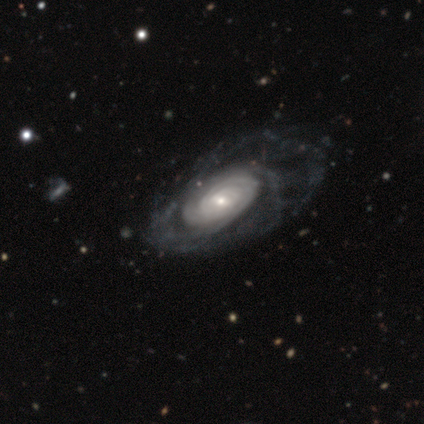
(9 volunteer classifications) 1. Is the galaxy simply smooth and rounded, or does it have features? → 89% featured or disk, 11% smooth, 0% star or artifact.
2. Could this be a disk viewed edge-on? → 88% no, 12% yes.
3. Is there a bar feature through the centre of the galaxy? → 57% weak, 29% no, 14% strong.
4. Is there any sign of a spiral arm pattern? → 86% yes, 14% no.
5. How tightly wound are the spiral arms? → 100% tight, 0% medium, 0% loose.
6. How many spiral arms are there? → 33% 4 (tied), 33% can't tell (tied), 17% 2, 17% more than 4, 0% 1, 0% 3.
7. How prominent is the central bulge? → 57% small, 43% moderate, 0% dominant, 0% large, 0% none.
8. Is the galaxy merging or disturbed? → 44% none, 33% minor disturbance, 22% major disturbance, 0% merger.